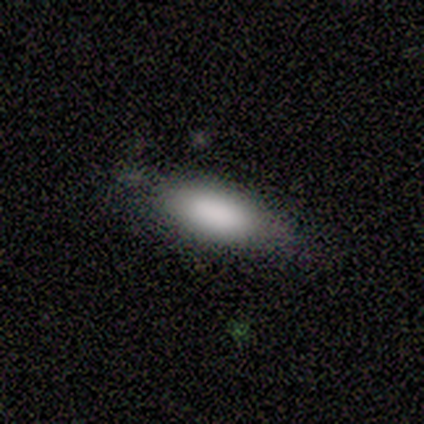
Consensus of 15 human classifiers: Smooth or featured? 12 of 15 (80%) said smooth. How rounded? 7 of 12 (58%) said in between. Merging? 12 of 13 (92%) said none.